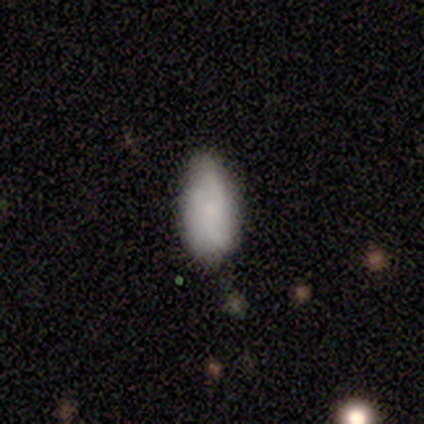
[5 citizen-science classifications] Smooth or featured? smooth (80%)
How rounded? in between (100%)
Merging? none (60%)